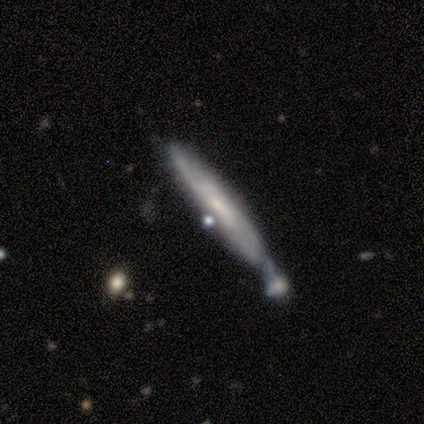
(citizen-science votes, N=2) Overall: featured or disk (100%). Edge-on disk: yes (100%). Edge-on bulge: none (100%). Merging: none (50%, tied with minor disturbance).